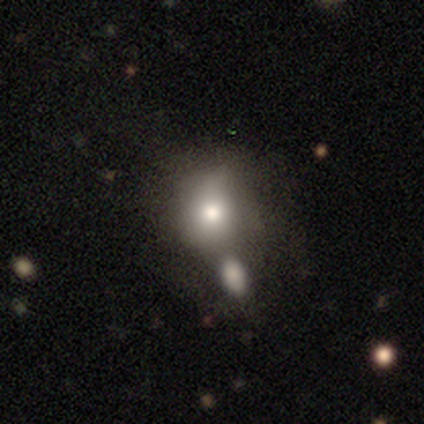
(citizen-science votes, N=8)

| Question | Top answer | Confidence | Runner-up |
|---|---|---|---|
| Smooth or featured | smooth | 75% | featured or disk (12%) |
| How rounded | round | 67% | in between (33%) |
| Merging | none | 43% | tied: merger (43%) |